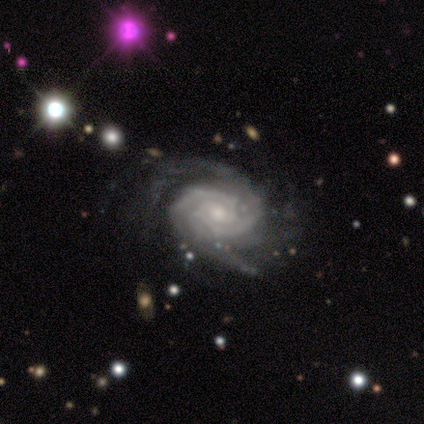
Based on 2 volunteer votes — This is clearly a featured or disk galaxy (100%). It is clearly not viewed edge-on (100%). Bar: clearly no (100%). Spiral arm pattern: clearly yes (100%). Spiral arm count: possibly 2 (50%, tied with can't tell). Spiral winding: clearly tight (100%). Central bulge: clearly small (100%). Merging: possibly none (50%, tied with minor disturbance).